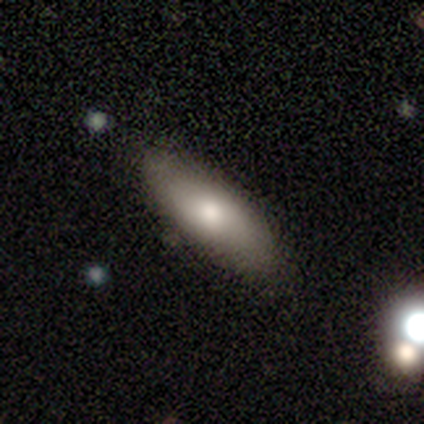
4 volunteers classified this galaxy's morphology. Smooth or featured? 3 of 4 (75%) said smooth. How rounded? 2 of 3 (67%) said in between. Merging? 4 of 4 (100%) said none.